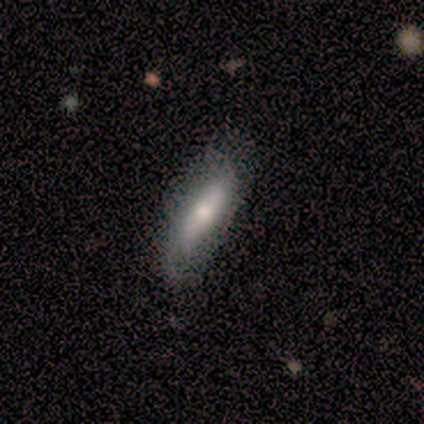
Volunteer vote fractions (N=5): smooth 80%, featured or disk 20%, star or artifact 0%. Down the decision tree: how rounded — cigar-shaped (75%); merging — none (80%).